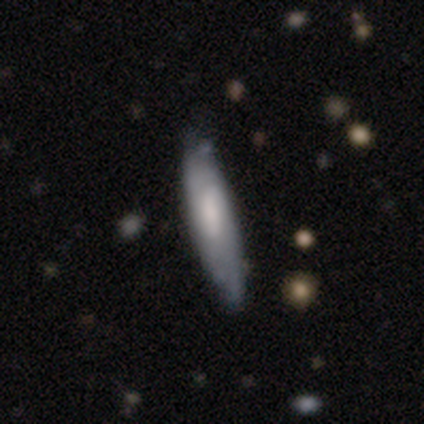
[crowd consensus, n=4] This appears to be a smooth galaxy with no disk features (100%) that is cigar-shaped (100%). Merging: none (100%).